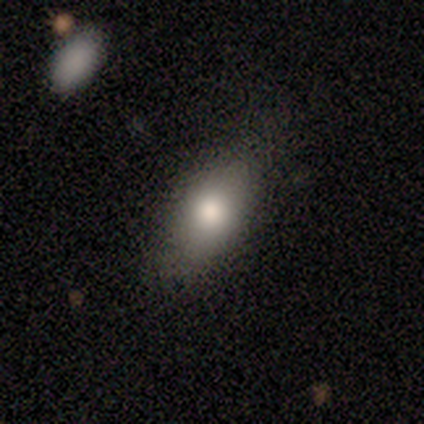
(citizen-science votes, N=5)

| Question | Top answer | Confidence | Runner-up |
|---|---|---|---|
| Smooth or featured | smooth | 100% | — |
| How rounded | in between | 100% | — |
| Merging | none | 80% | major disturbance (20%) |